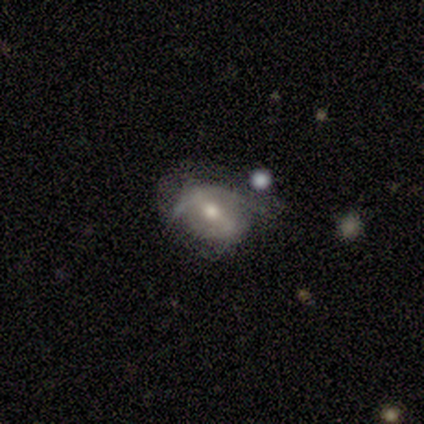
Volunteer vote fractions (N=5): A featured or disk galaxy (100%) with a strong bar (60%), no spiral arms (60%) and a moderate central bulge (100%). Merging: minor disturbance (80%).